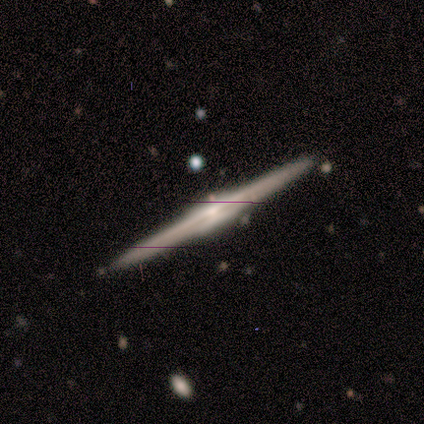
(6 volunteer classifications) Smooth or featured? featured or disk (100%)
Edge-on disk? yes (100%)
Edge-on bulge? boxy (33%, tied with none and rounded)
Merging? none (100%)